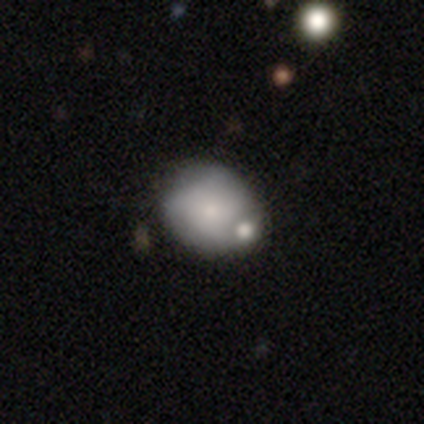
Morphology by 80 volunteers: Volunteers were most divided on "how rounded": round: 53%, in between: 47%, cigar-shaped: 0%. More confident: smooth or featured — smooth (69%); merging — none (58%).